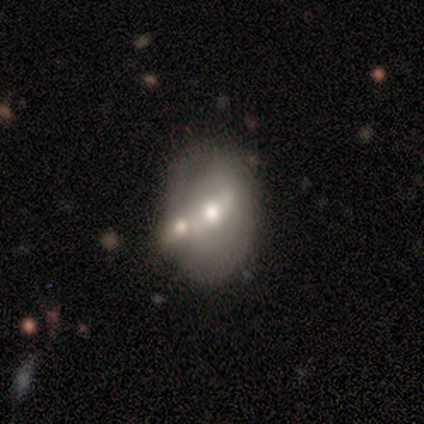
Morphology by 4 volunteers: Volunteers were most divided on "smooth or featured": star or artifact: 50%, smooth: 25%, featured or disk: 25%.